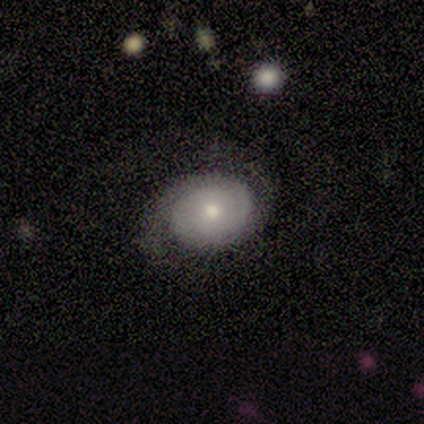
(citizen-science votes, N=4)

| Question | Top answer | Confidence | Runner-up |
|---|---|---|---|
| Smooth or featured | smooth | 50% | featured or disk (25%) |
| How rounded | round | 50% | tied: in between (50%) |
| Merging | major disturbance | 67% | minor disturbance (33%) |